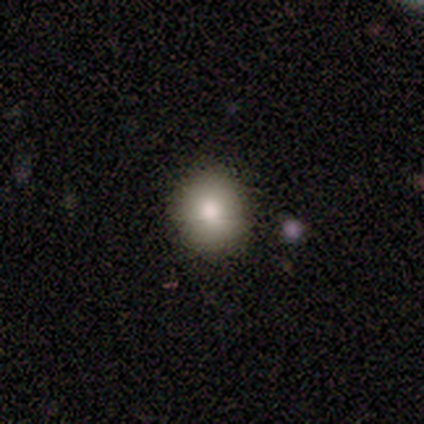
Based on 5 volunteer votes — Smooth or featured? smooth (80%)
How rounded? round (100%)
Merging? none (80%)